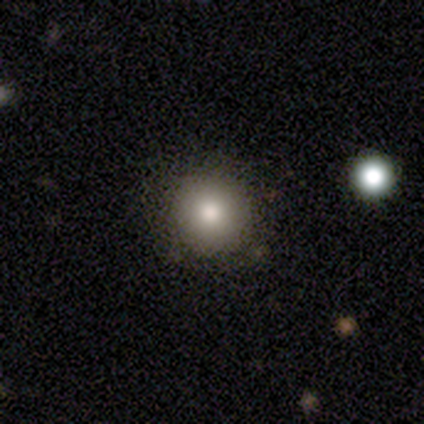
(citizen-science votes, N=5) Overall: smooth (80%). How rounded: round (100%). Merging: none (60%; minor disturbance 40%).